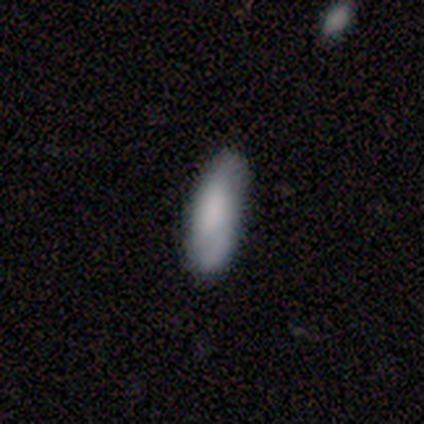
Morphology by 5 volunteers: This is likely a smooth galaxy (60%). How rounded: likely in between (67%). Merging: clearly none (100%).